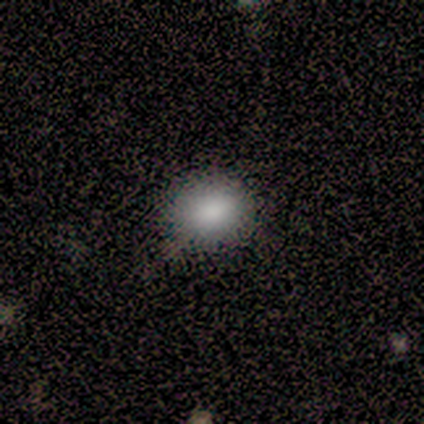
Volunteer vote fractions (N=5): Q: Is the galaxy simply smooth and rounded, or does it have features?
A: smooth — 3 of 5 (60%).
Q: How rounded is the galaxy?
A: round — 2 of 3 (67%).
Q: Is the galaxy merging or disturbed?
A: minor disturbance — 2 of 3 (67%).